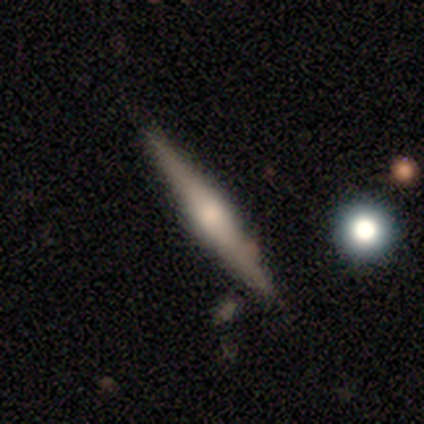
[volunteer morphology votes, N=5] type=smooth (60%); roundness=cigar-shaped (100%); merging=none (80%).